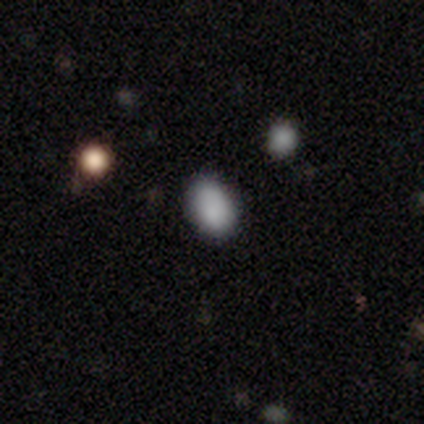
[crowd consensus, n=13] smooth-or-featured: smooth: 100% | featured or disk: 0% | star or artifact: 0%
  how-rounded: in between: 92% | round: 8% | cigar-shaped: 0%
  merging: none: 77% | minor disturbance: 23% | major disturbance: 0% | merger: 0%